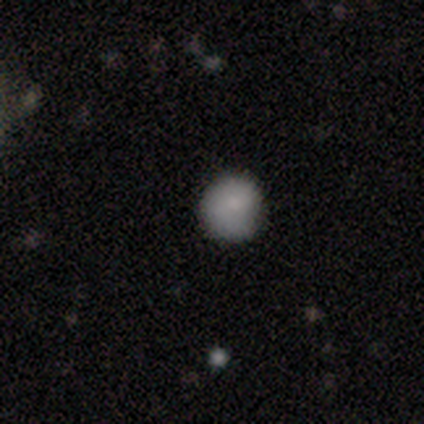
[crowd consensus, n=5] Q: Smooth or featured?
A: smooth (80%); runner-up: star or artifact (20%)
Q: How rounded?
A: round (75%); runner-up: in between (25%)
Q: Merging?
A: none (50%); tied with: minor disturbance (50%)